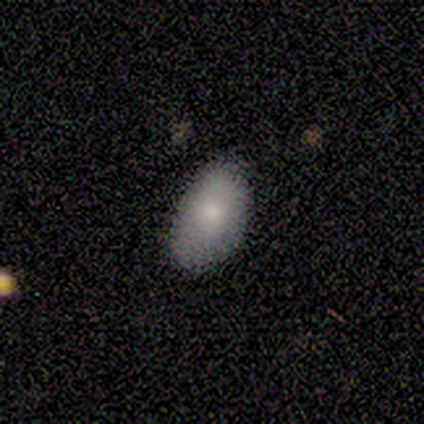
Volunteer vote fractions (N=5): smooth_or_featured: smooth (p=0.80) [alt: featured or disk p=0.20]
how_rounded: in between (p=1.00)
merging: minor disturbance (p=0.60) [alt: none p=0.40]